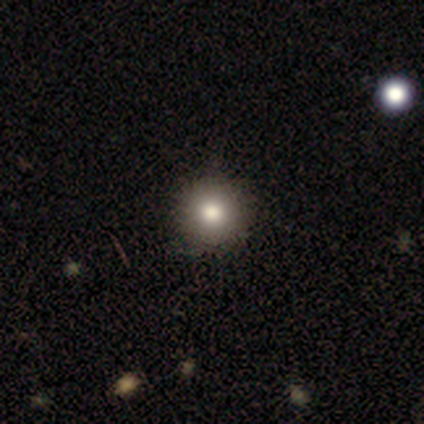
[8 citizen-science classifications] This is likely a smooth galaxy (75%). How rounded: clearly round (100%). Merging: possibly none (57%).